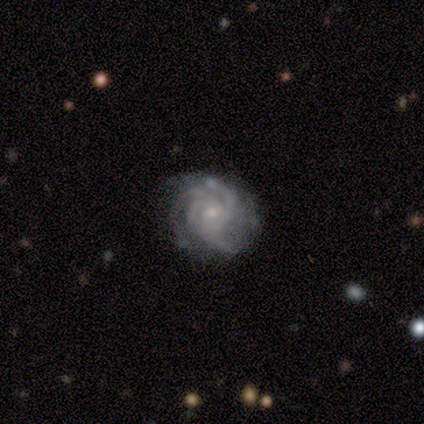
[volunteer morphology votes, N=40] Smooth or featured? 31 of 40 (78%) said featured or disk. Edge-on disk? 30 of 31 (97%) said no. Bar? 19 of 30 (63%) said no. Spiral arms? 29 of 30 (97%) said yes. Spiral winding? 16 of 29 (55%) said tight. Spiral arm count? 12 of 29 (41%) said 3. Bulge size? 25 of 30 (83%) said small. Merging? 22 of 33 (67%) said none.